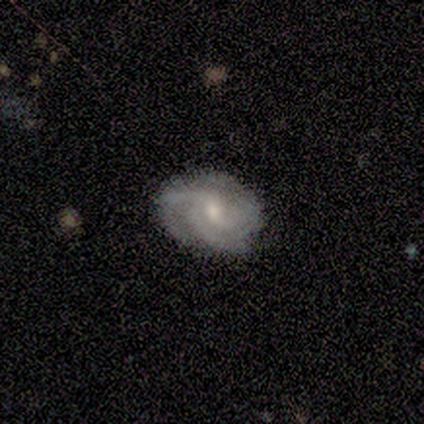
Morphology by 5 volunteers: A featured or disk galaxy (100%) with a weak bar (100%), 3 (100%) tight (75%) spiral arms (100%) and a moderate central bulge (75%).

Vote fractions:
- Smooth or featured? featured or disk: 100% / smooth: 0% / star or artifact: 0%
- Edge-on disk? no: 80% / yes: 20%
- Bar? weak: 100% / strong: 0% / no: 0%
- Spiral arms? yes: 100% / no: 0%
- Spiral winding? tight: 75% / medium: 25% / loose: 0%
- Spiral arm count? 3: 100% / 1: 0% / 2: 0% / 4: 0% / more than 4: 0% / can't tell: 0%
- Bulge size? moderate: 75% / small: 25% / dominant: 0% / large: 0% / none: 0%
- Merging? minor disturbance: 60% / none: 40% / major disturbance: 0% / merger: 0%